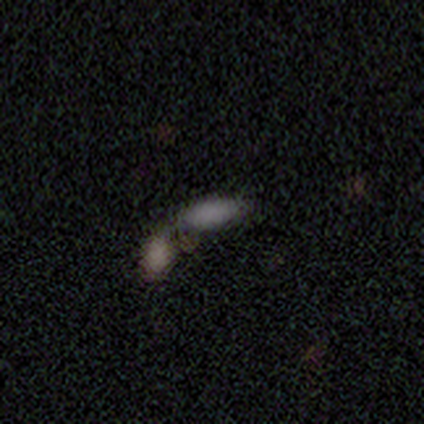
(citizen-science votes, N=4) This appears to be a smooth galaxy with no disk features (50%, tied with featured or disk) that is in between round and cigar-shaped (50%, tied with cigar-shaped). Merging: none (50%).